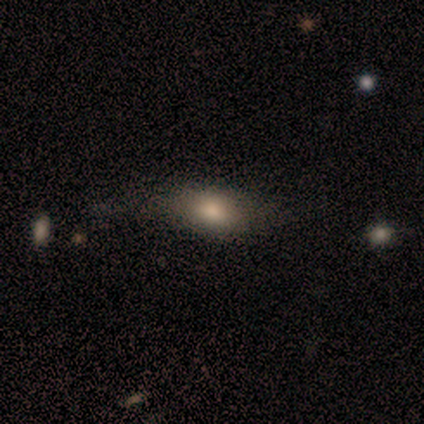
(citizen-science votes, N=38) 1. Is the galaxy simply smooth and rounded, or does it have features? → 74% smooth, 18% featured or disk, 8% star or artifact.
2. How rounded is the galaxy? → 68% in between, 18% cigar-shaped, 14% round.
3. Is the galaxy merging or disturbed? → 60% none, 20% minor disturbance, 17% major disturbance, 3% merger.